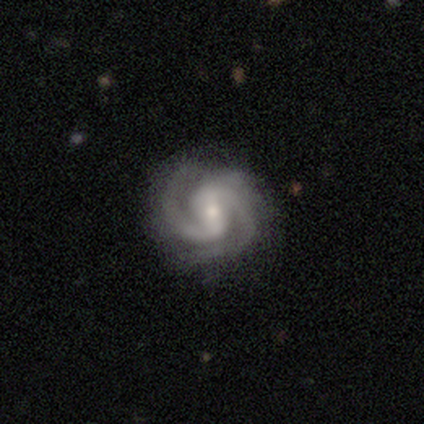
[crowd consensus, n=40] smooth_or_featured: featured or disk (p=0.85) [alt: smooth p=0.10]
disk_edge_on: no (p=0.94) [alt: yes p=0.06]
bar: weak (p=0.50) [alt: strong p=0.47]
has_spiral_arms: yes (p=1.00)
spiral_winding: medium (p=0.56) [alt: tight p=0.34]
spiral_arm_count: 2 (p=0.78) [alt: 3 p=0.12]
bulge_size: moderate (p=0.47) [alt: small p=0.44]
merging: none (p=0.58) [alt: minor disturbance p=0.26]